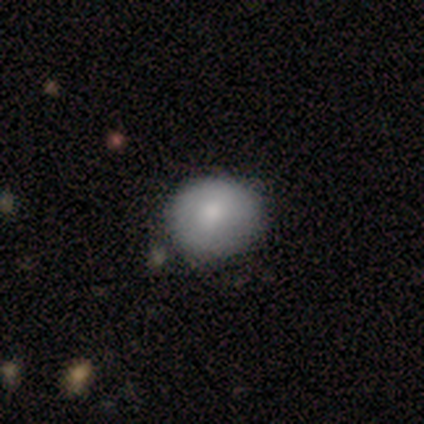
Overall: smooth (84%). How rounded: round (78%). Merging: none (54%).